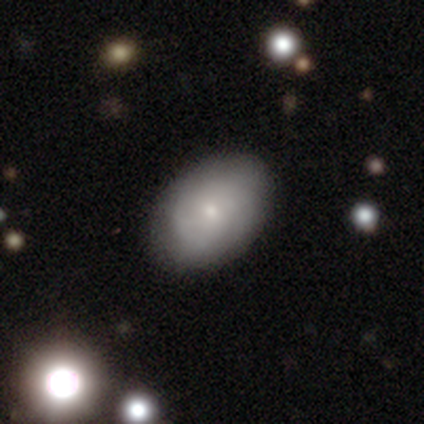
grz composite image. It shows a smooth galaxy with no disk features (50%) that is in between round and cigar-shaped (84%). Merging: none (63%).